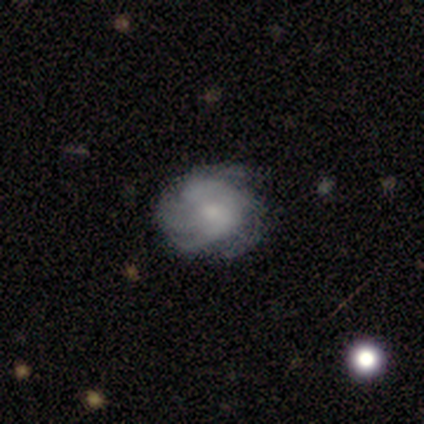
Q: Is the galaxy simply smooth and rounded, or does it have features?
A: featured or disk — 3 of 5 (60%).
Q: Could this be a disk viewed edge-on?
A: no — 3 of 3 (100%).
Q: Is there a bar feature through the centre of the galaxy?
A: no — 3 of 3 (100%).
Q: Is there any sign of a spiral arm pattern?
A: yes — 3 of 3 (100%).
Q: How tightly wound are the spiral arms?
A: tight — 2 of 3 (67%).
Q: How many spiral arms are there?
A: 4 — 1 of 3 (33%, tied with more than 4 and can't tell).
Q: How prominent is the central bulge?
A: small — 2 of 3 (67%).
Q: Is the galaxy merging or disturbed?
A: none — 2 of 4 (50%, tied with minor disturbance).